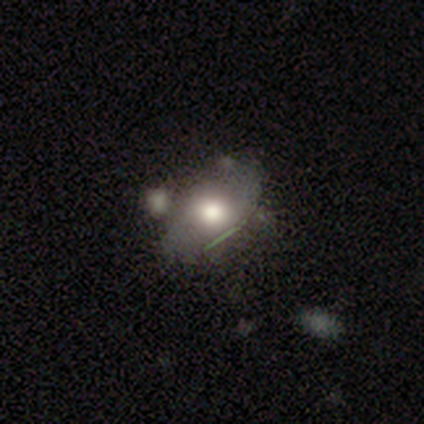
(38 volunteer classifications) This is possibly a smooth galaxy (53%). How rounded: clearly in between (80%). Merging: marginally merger (24%).